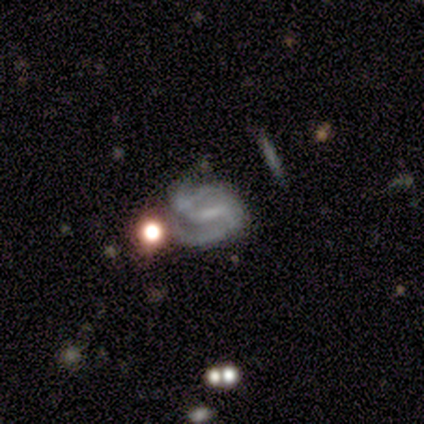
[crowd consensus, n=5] Smooth or featured? featured or disk (80%)
Edge-on disk? no (100%)
Bar? weak (75%)
Spiral arms? yes (100%)
Spiral winding? medium (50%)
Spiral arm count? 2 (100%)
Bulge size? small (50%, tied with none)
Merging? none (40%)